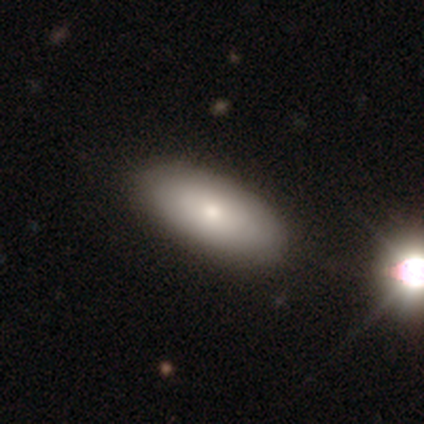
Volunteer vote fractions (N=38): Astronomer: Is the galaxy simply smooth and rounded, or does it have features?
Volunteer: smooth — 87%.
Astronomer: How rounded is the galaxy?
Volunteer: in between — 94%.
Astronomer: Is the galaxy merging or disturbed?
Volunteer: none — 86%.